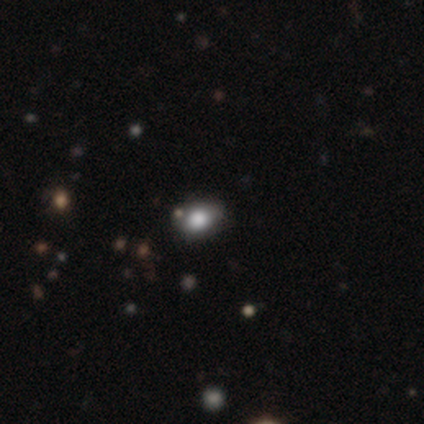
Smooth or featured? smooth (75%)
How rounded? in between (75%)
Merging? none (65%)